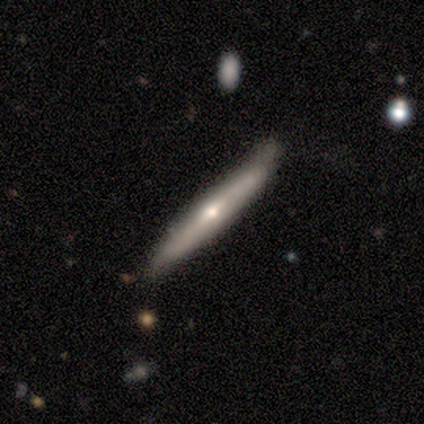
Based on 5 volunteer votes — Smooth or featured?
  - featured or disk: 60% *
  - smooth: 40%
  - star or artifact: 0%
Edge-on disk?
  - yes: 100% *
  - no: 0%
Edge-on bulge?
  - rounded: 100% *
  - boxy: 0%
  - none: 0%
Merging?
  - none: 80% *
  - minor disturbance: 20%
  - major disturbance: 0%
  - merger: 0%